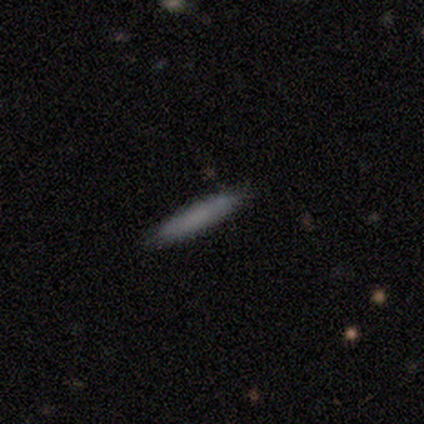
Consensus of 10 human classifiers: A smooth galaxy with no disk features (80%) that is cigar-shaped (88%). Merging: none (78%).